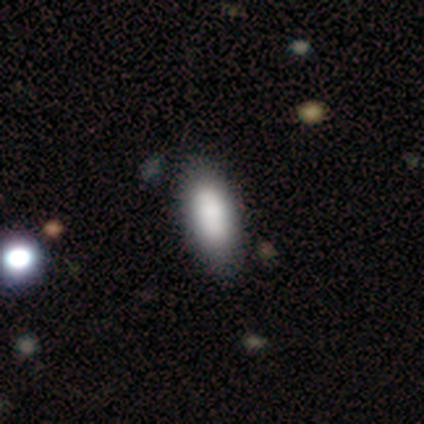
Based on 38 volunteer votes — This is clearly a smooth galaxy (87%). How rounded: clearly in between (94%). Merging: likely none (61%).